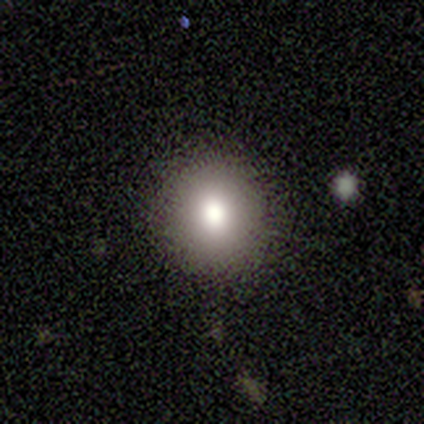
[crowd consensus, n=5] smooth_or_featured: smooth (p=0.60) [alt: star or artifact p=0.40]
how_rounded: round (p=0.67) [alt: in between p=0.33]
merging: none (p=1.00)